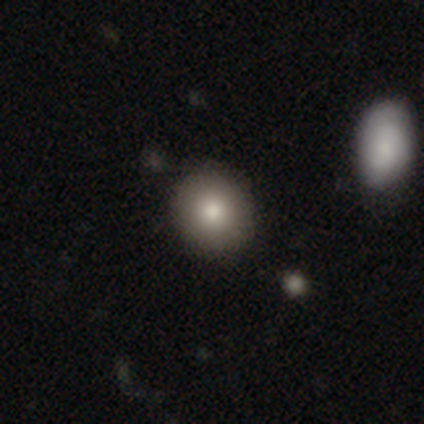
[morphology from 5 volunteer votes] smooth-or-featured: smooth: 100% | featured or disk: 0% | star or artifact: 0%
  how-rounded: round: 100% | in between: 0% | cigar-shaped: 0%
  merging: none: 100% | minor disturbance: 0% | major disturbance: 0% | merger: 0%